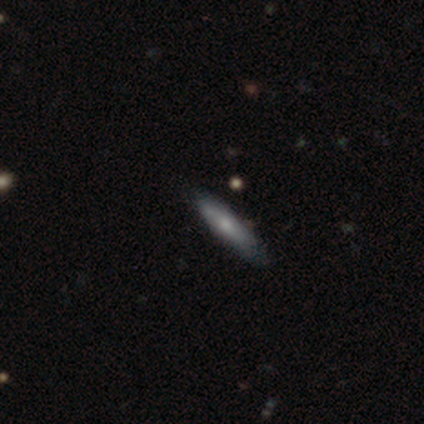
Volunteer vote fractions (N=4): A smooth galaxy with no disk features (50%, tied with star or artifact) that is cigar-shaped (100%).

Vote fractions:
- Smooth or featured? smooth: 50% (tied) / star or artifact: 50% (tied) / featured or disk: 0%
- How rounded? cigar-shaped: 100% / round: 0% / in between: 0%
- Merging? none: 100% / minor disturbance: 0% / major disturbance: 0% / merger: 0%